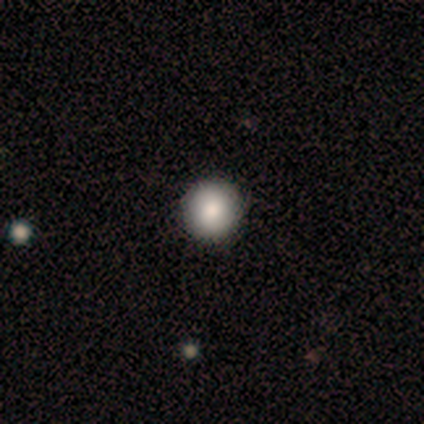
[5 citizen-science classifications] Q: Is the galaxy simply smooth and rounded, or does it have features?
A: smooth — 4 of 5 (80%).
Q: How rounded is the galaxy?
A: round — 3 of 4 (75%).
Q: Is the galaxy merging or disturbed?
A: none — 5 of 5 (100%).